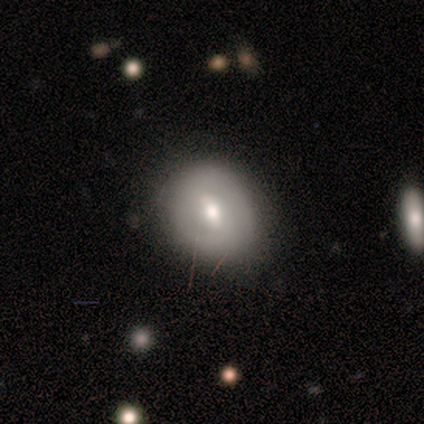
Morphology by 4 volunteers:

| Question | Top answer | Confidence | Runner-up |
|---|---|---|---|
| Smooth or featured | smooth | 50% | tied: featured or disk (50%) |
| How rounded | in between | 100% | — |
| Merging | none | 75% | major disturbance (25%) |